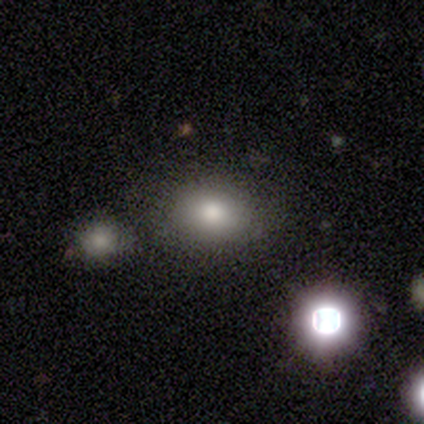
Volunteers were most divided on "merging" (2-way tie): none: 50%, minor disturbance: 50%, major disturbance: 0%, merger: 0%. More confident: smooth or featured — smooth (80%); how rounded — in between (75%).